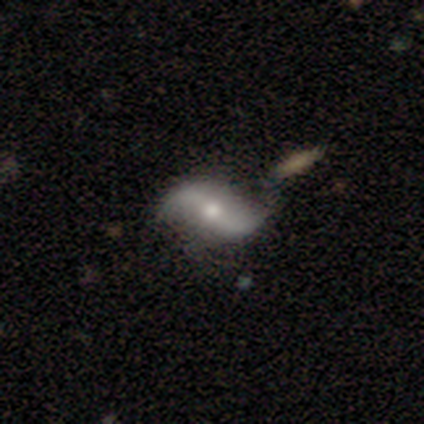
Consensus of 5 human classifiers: Smooth or featured: featured or disk — 100%
Edge-on disk: no — 100%
Bar: no — 60% (weak — 40%)
Spiral arms: yes — 100%
Spiral winding: loose — 80% (medium — 20%)
Spiral arm count: 2 — 100%
Bulge size: moderate — 80% (small — 20%)
Merging: none — 60% (minor disturbance — 40%)